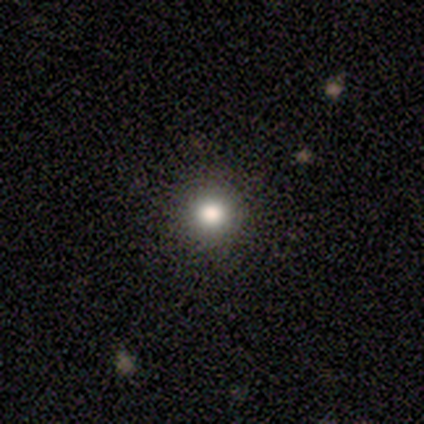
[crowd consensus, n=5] Smooth or featured?
  - smooth: 40% * (tied)
  - featured or disk: 40% * (tied)
  - star or artifact: 20%
How rounded?
  - round: 100% *
  - in between: 0%
  - cigar-shaped: 0%
Merging?
  - none: 75% *
  - minor disturbance: 25%
  - major disturbance: 0%
  - merger: 0%